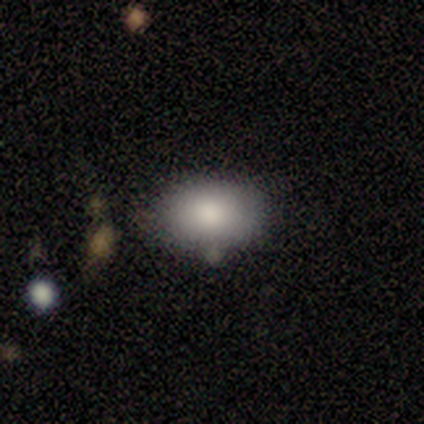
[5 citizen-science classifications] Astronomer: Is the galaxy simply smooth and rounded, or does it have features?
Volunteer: smooth — 80%.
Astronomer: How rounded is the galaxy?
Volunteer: in between — 75%.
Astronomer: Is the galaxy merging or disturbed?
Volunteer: none — 100%.